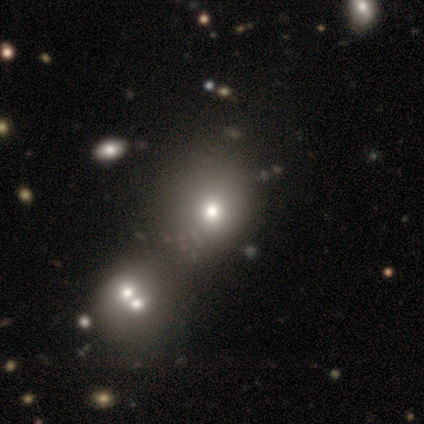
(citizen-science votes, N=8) Smooth or featured? 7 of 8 (88%) said smooth. How rounded? 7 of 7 (100%) said round. Merging? 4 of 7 (57%) said none.